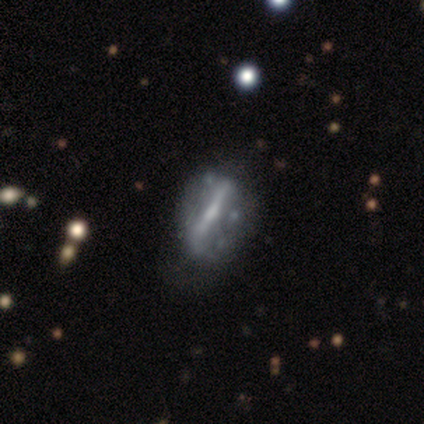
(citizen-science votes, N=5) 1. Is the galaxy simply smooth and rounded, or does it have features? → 100% featured or disk, 0% smooth, 0% star or artifact.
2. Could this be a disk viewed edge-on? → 60% yes, 40% no.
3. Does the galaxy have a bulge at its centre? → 67% rounded, 33% boxy, 0% none.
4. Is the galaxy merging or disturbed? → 80% none, 20% minor disturbance, 0% major disturbance, 0% merger.